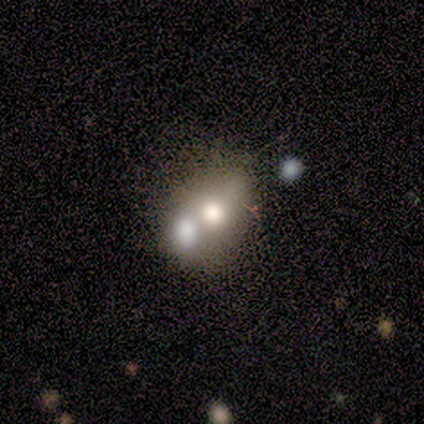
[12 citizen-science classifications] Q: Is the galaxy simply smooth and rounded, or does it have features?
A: smooth — 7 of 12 (58%).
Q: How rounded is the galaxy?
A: in between — 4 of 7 (57%).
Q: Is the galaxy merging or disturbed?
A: merger — 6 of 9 (67%).